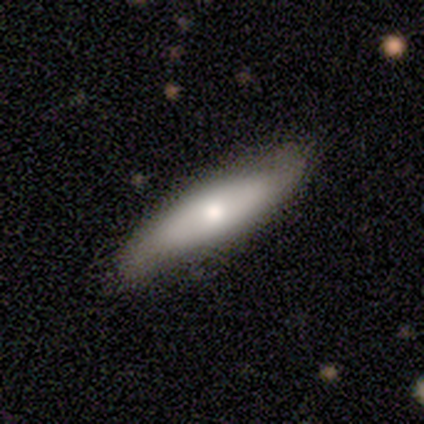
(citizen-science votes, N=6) smooth 67%, featured or disk 33%, star or artifact 0%. Down the decision tree: how rounded — cigar-shaped (75%); merging — none (83%).